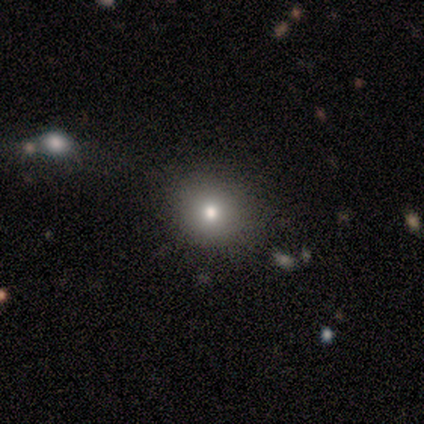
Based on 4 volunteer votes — A smooth galaxy with no disk features (100%) that is round (100%). Merging: none (100%).